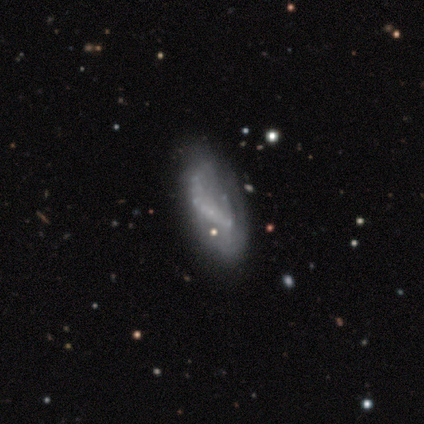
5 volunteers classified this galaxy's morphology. Smooth or featured: smooth — 40% (tied with star or artifact — 40%)
How rounded: in between — 100%
Merging: none — 33% (tied with minor disturbance — 33%; major disturbance — 33%)